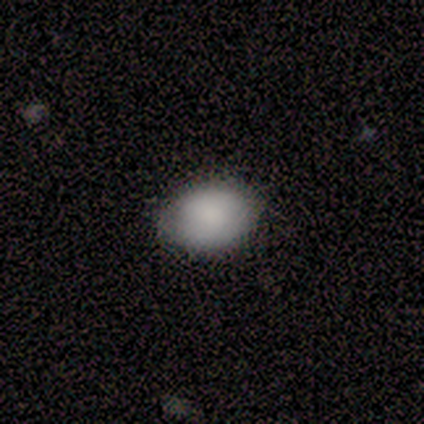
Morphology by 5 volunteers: This is clearly a smooth galaxy (80%). How rounded: clearly in between (100%). Merging: likely none (60%).